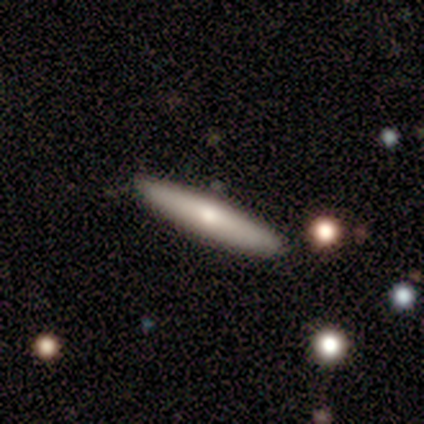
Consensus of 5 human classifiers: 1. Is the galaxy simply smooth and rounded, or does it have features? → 60% smooth, 40% featured or disk, 0% star or artifact.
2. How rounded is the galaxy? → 100% cigar-shaped, 0% round, 0% in between.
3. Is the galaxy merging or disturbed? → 80% none, 20% minor disturbance, 0% major disturbance, 0% merger.